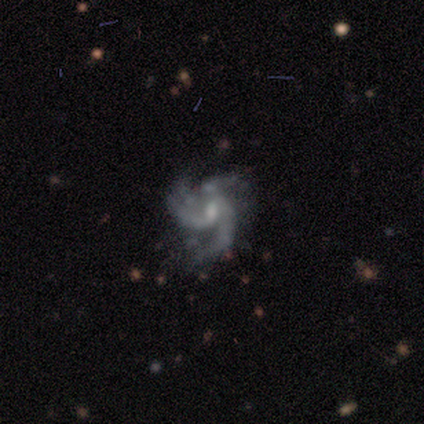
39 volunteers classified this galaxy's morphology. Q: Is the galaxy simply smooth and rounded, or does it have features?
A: featured or disk — 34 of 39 (87%).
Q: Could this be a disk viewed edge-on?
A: no — 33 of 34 (97%).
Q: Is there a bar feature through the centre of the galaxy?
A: no — 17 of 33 (52%).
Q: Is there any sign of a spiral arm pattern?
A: yes — 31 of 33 (94%).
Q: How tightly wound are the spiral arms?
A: loose — 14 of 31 (45%).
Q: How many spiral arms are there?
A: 3 — 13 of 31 (42%).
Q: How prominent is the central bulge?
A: small — 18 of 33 (55%).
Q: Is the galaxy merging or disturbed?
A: none — 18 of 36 (50%).